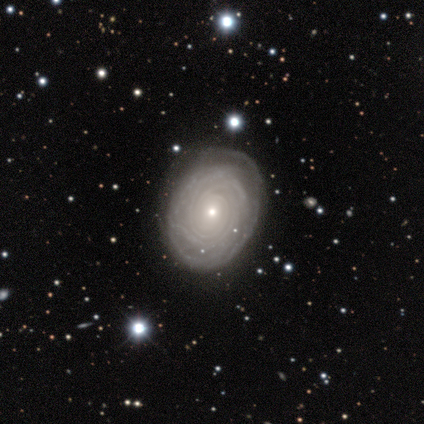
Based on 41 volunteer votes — Smooth or featured? featured or disk (88%)
Edge-on disk? no (97%)
Bar? no (86%)
Spiral arms? yes (86%)
Spiral winding? tight (93%)
Spiral arm count? can't tell (33%)
Bulge size? small (80%)
Merging? none (78%)